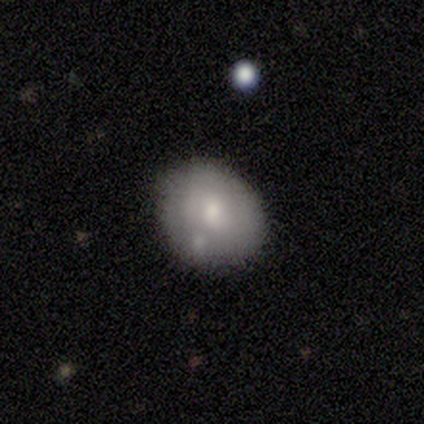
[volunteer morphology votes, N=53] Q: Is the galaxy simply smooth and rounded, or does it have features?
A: smooth — 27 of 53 (51%).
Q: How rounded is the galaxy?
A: round — 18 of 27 (67%).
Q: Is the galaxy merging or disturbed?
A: none — 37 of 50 (74%).